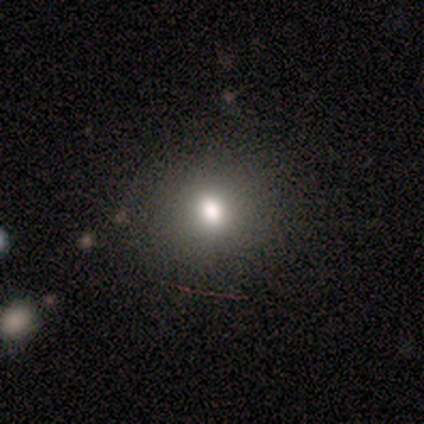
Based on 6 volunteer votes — This is likely a smooth galaxy (67%). How rounded: likely in between (75%). Merging: clearly none (100%).